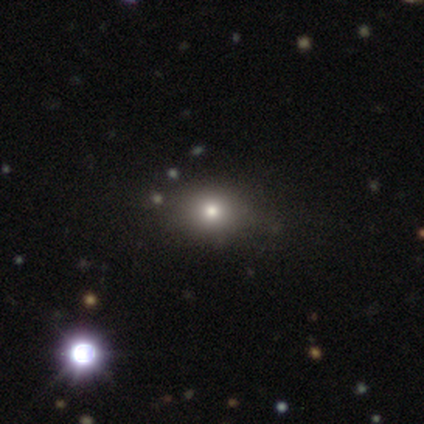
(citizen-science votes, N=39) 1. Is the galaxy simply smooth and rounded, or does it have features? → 72% smooth, 18% star or artifact, 10% featured or disk.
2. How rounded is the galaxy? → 57% round, 43% in between, 0% cigar-shaped.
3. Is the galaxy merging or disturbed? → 47% none, 9% minor disturbance, 9% merger, 0% major disturbance.